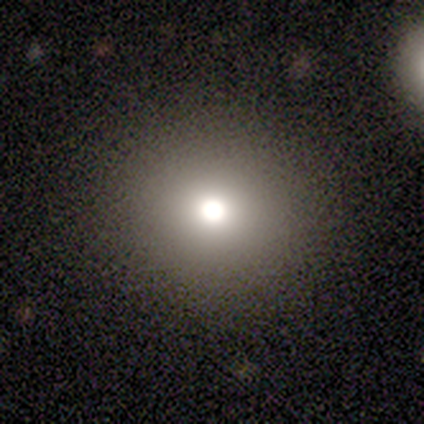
This appears to be a smooth galaxy with no disk features (100%) that is round (100%). Merging: none (50%, tied with major disturbance).